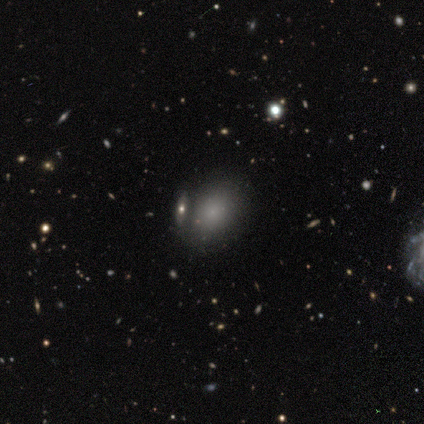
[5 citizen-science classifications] Morphology: type=smooth (100%); roundness=in between (100%); merging=none (60%).